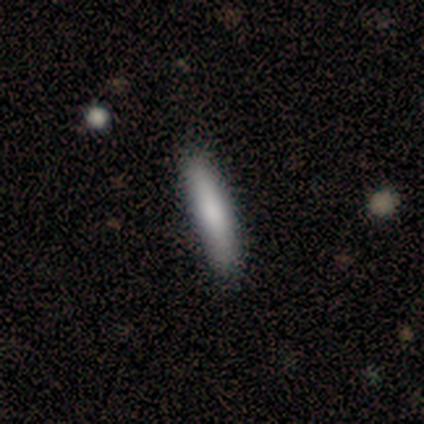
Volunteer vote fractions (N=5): Smooth or featured?
  - smooth: 100% *
  - featured or disk: 0%
  - star or artifact: 0%
How rounded?
  - cigar-shaped: 100% *
  - round: 0%
  - in between: 0%
Merging?
  - none: 100% *
  - minor disturbance: 0%
  - major disturbance: 0%
  - merger: 0%